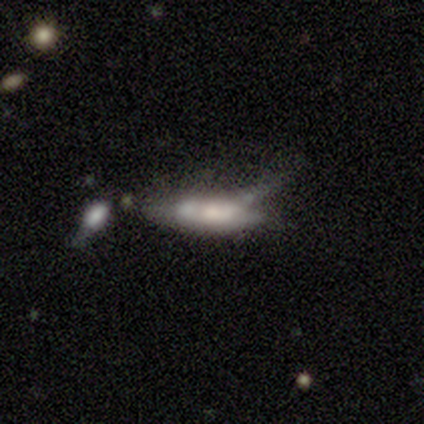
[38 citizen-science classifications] Overall: smooth (45%, tied with featured or disk). How rounded: cigar-shaped (59%; in between 41%). Merging: minor disturbance (32%; major disturbance 24%).